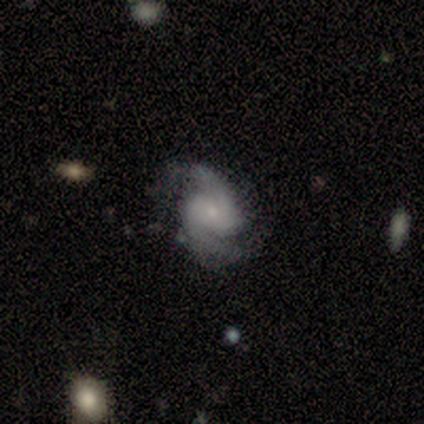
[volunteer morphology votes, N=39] This is clearly a featured or disk galaxy (92%). It is clearly not viewed edge-on (100%). Bar: possibly no (58%). Spiral arm pattern: clearly yes (100%). Spiral arm count: clearly 2 (92%). Spiral winding: likely medium (64%). Central bulge: likely small (75%). Merging: likely none (79%).